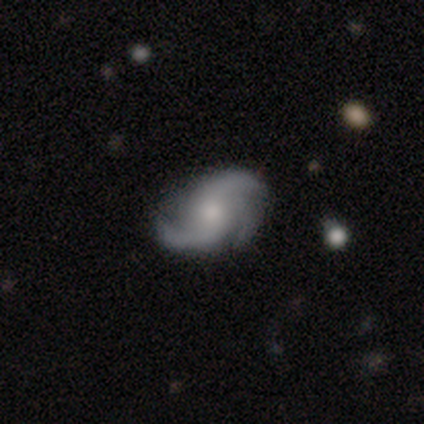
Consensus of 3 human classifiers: Smooth or featured? featured or disk (100%)
Edge-on disk? no (100%)
Bar? no (100%)
Spiral arms? yes (100%)
Spiral winding? loose (67%)
Spiral arm count? 2 (67%)
Bulge size? moderate (67%)
Merging? none (67%)